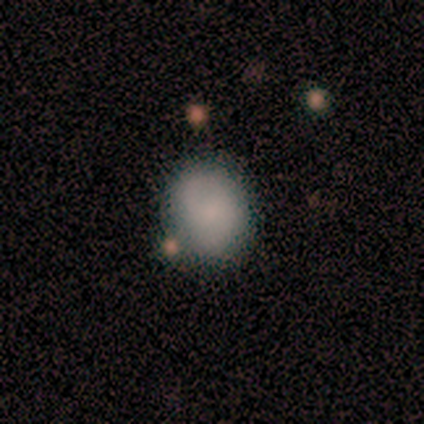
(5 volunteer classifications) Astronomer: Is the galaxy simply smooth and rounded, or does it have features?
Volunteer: smooth — 60% (runner-up: featured or disk, 40%).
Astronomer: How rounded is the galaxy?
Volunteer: in between — 67%.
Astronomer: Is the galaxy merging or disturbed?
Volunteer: none — 80%.